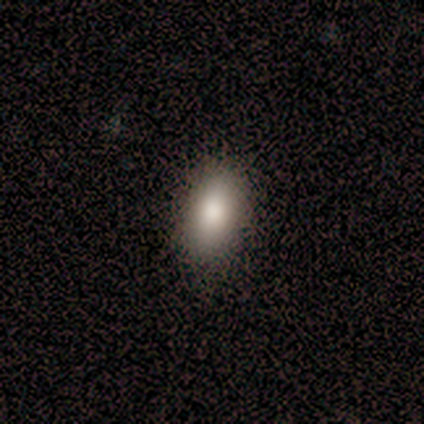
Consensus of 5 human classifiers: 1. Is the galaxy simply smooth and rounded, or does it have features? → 100% smooth, 0% featured or disk, 0% star or artifact.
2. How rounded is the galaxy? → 80% in between, 20% cigar-shaped, 0% round.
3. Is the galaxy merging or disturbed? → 100% none, 0% minor disturbance, 0% major disturbance, 0% merger.